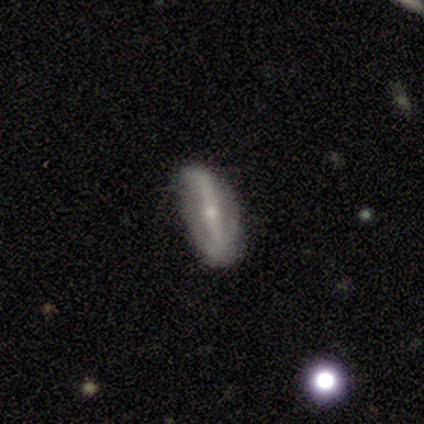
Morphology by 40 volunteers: smooth_or_featured: featured or disk (p=0.55) [alt: smooth p=0.30]
disk_edge_on: no (p=0.82) [alt: yes p=0.18]
bar: strong (p=0.72) [alt: no p=0.17]
has_spiral_arms: yes (p=0.83) [alt: no p=0.17]
spiral_winding: loose (p=0.60) [alt: medium p=0.27]
spiral_arm_count: 2 (p=0.93) [alt: can't tell p=0.07]
bulge_size: small (p=0.56) [alt: moderate p=0.33]
merging: none (p=0.74) [alt: minor disturbance p=0.24]